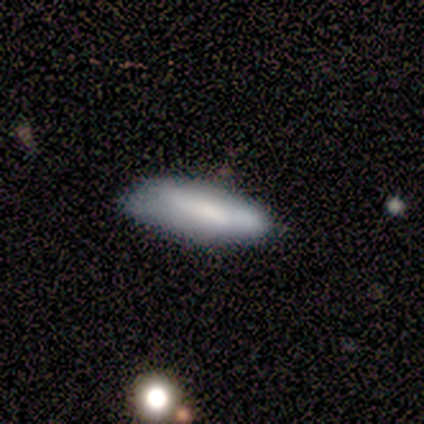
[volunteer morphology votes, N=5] Volunteers were most divided on "smooth or featured": smooth: 60%, featured or disk: 40%, star or artifact: 0%. More confident: how rounded — in between (67%); merging — minor disturbance (60%).